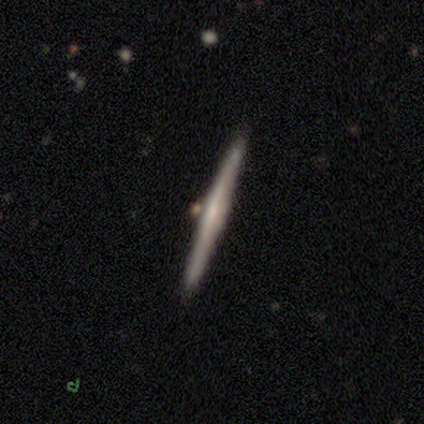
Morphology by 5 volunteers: Overall: smooth (40%, tied with featured or disk). How rounded: cigar-shaped (100%). Merging: none (75%).